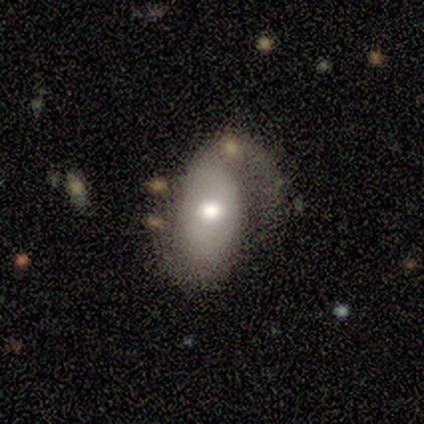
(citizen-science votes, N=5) Smooth or featured: featured or disk — 80% (smooth — 20%)
Edge-on disk: no — 100%
Bar: no — 75% (weak — 25%)
Spiral arms: yes — 75% (no — 25%)
Spiral winding: medium — 67% (loose — 33%)
Spiral arm count: 1 — 67% (2 — 33%)
Bulge size: moderate — 75% (small — 25%)
Merging: minor disturbance — 60% (none — 20%)